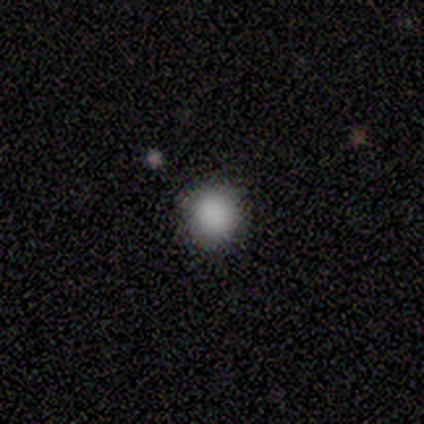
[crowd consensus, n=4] This is likely a smooth galaxy (75%). How rounded: clearly round (100%). Merging: clearly none (100%).